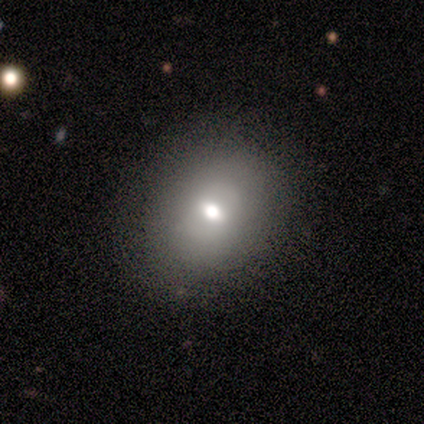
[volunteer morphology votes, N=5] type=smooth (40%, tied with featured or disk); roundness=round (100%); merging=none (75%).